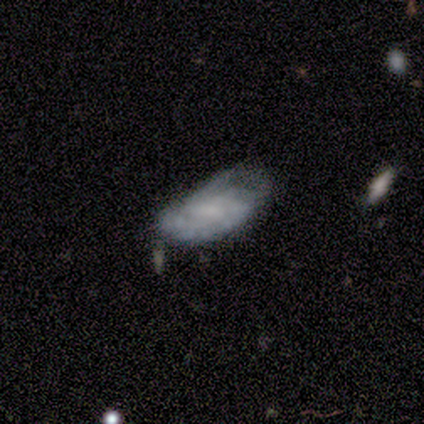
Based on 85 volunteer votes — Smooth or featured? 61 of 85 (72%) said featured or disk. Edge-on disk? 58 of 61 (95%) said no. Bar? 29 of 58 (50%) said weak. Spiral arms? 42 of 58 (72%) said yes. Spiral winding? 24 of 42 (57%) said tight. Spiral arm count? 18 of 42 (43%) said can't tell. Bulge size? 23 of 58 (40%) said none. Merging? 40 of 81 (49%) said minor disturbance.